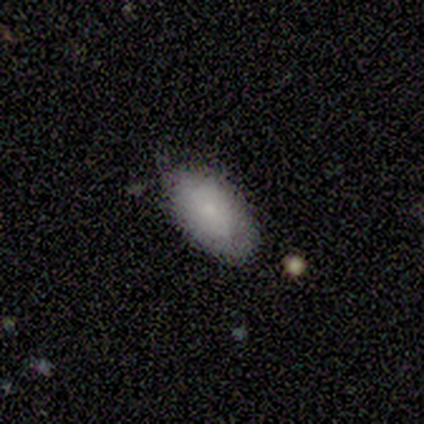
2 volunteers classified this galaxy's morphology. A smooth galaxy with no disk features (100%) that is in between round and cigar-shaped (100%).

Vote fractions:
- Smooth or featured? smooth: 100% / featured or disk: 0% / star or artifact: 0%
- How rounded? in between: 100% / round: 0% / cigar-shaped: 0%
- Merging? none: 100% / minor disturbance: 0% / major disturbance: 0% / merger: 0%